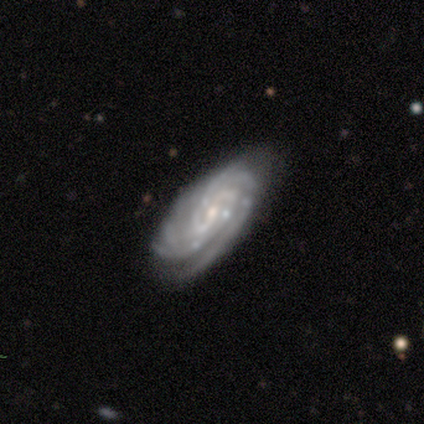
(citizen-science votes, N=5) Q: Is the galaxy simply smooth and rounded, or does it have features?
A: featured or disk — 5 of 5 (100%).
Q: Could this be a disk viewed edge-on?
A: no — 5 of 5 (100%).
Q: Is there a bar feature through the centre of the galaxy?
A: weak — 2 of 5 (40%, tied with no).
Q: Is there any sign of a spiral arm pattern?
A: yes — 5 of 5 (100%).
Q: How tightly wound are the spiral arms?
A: tight — 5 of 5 (100%).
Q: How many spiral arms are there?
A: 3 — 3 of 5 (60%).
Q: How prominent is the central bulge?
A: small — 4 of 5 (80%).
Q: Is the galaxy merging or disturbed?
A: none — 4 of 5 (80%).